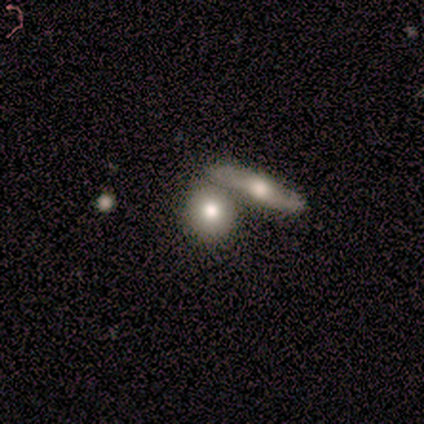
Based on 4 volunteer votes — A smooth galaxy with no disk features (75%) that is round (67%). Merging: none (75%).